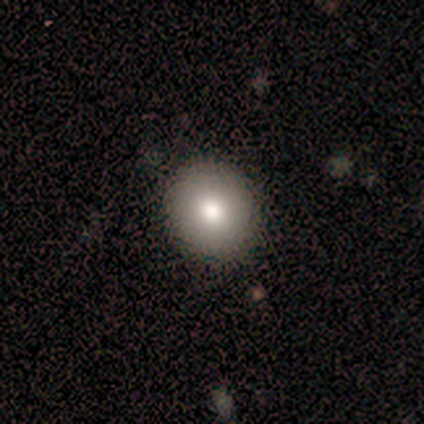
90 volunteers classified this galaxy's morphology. A smooth galaxy with no disk features (78%) that is round (97%).

Vote fractions:
- Smooth or featured? smooth: 78% / featured or disk: 11% / star or artifact: 11%
- How rounded? round: 97% / in between: 3% / cigar-shaped: 0%
- Merging? none: 92% / minor disturbance: 8% / major disturbance: 0% / merger: 0%